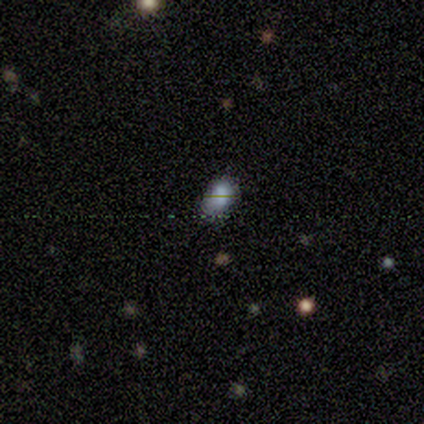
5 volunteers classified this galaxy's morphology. This appears to be a smooth galaxy with no disk features (60%) that is in between round and cigar-shaped (100%). Merging: none (67%).